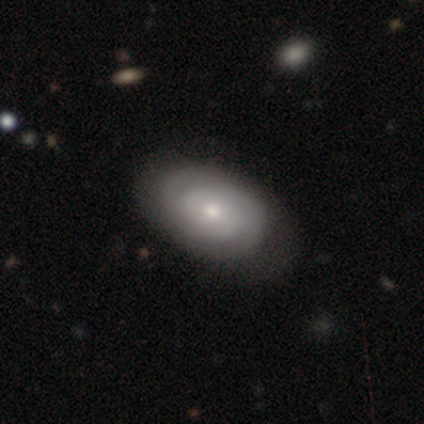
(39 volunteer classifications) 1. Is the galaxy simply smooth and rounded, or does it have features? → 69% featured or disk, 28% smooth, 3% star or artifact.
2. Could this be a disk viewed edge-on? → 100% no, 0% yes.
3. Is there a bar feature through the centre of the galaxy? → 81% no, 19% weak, 0% strong.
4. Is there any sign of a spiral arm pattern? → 93% yes, 7% no.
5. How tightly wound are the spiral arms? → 80% tight, 20% medium, 0% loose.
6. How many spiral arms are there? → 36% 2, 32% can't tell, 20% 3, 12% 1, 0% 4, 0% more than 4.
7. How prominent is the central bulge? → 63% moderate, 30% small, 7% large, 0% dominant, 0% none.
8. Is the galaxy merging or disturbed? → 58% none, 13% minor disturbance, 0% major disturbance, 0% merger.